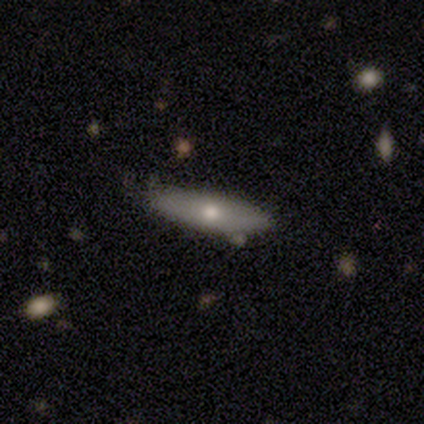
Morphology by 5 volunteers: Smooth or featured? smooth (80%)
How rounded? in between (75%)
Merging? none (60%)